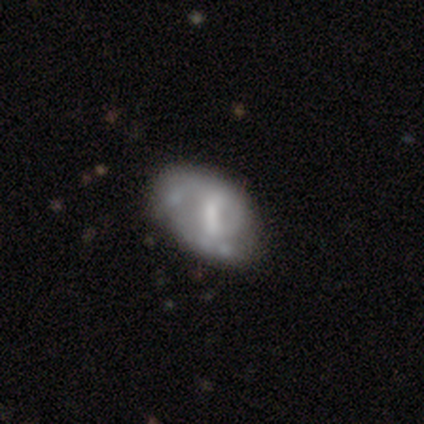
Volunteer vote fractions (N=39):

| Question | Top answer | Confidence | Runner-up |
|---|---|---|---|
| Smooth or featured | featured or disk | 54% | smooth (36%) |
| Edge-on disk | no | 100% | — |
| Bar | weak | 48% | strong (33%) |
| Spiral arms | no | 57% | yes (43%) |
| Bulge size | moderate | 43% | small (24%) |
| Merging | minor disturbance | 49% | none (40%) |